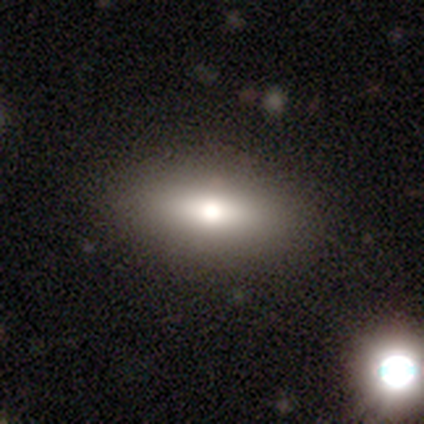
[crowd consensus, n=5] Morphology: type=smooth (40%, tied with star or artifact); roundness=in between (50%, tied with cigar-shaped); merging=none (100%).